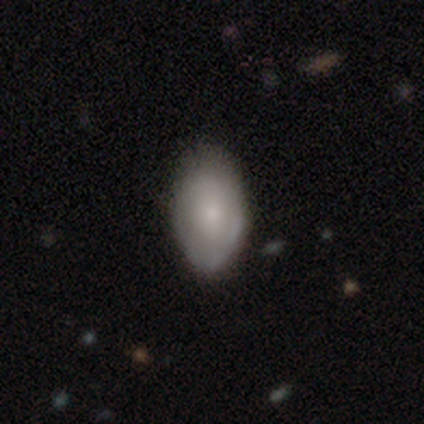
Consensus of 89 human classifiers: Overall: smooth (71%). How rounded: in between (92%). Merging: none (64%; minor disturbance 29%).